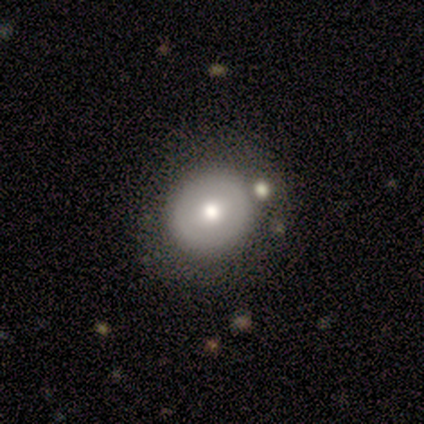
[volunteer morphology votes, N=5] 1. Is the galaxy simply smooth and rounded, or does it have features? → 60% smooth, 40% featured or disk, 0% star or artifact.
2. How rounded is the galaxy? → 100% round, 0% in between, 0% cigar-shaped.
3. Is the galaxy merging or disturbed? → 100% none, 0% minor disturbance, 0% major disturbance, 0% merger.